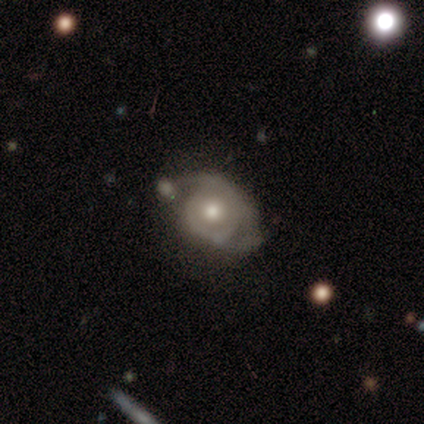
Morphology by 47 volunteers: Smooth or featured?
  - featured or disk: 70% *
  - smooth: 21%
  - star or artifact: 9%
Edge-on disk?
  - no: 100% *
  - yes: 0%
Bar?
  - no: 91% *
  - weak: 9%
  - strong: 0%
Spiral arms?
  - yes: 73% *
  - no: 27%
Spiral winding?
  - tight: 58% *
  - medium: 25%
  - loose: 17%
Spiral arm count?
  - 2: 75% *
  - can't tell: 21%
  - 1: 4%
  - 3: 0%
  - 4: 0%
  - more than 4: 0%
Bulge size?
  - moderate: 70% *
  - large: 18%
  - small: 12%
  - dominant: 0%
  - none: 0%
Merging?
  - minor disturbance: 37% *
  - none: 33%
  - merger: 21%
  - major disturbance: 9%